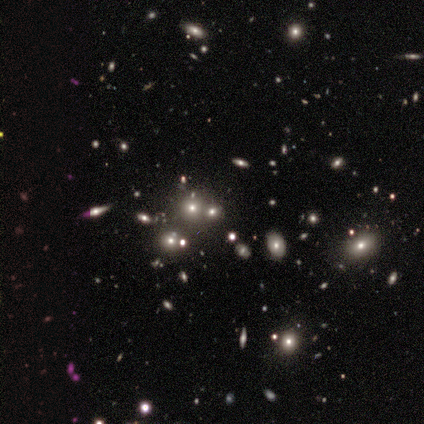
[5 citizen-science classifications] A star or artifact, not a galaxy (60%).

Vote fractions:
- Smooth or featured? star or artifact: 60% / smooth: 40% / featured or disk: 0%